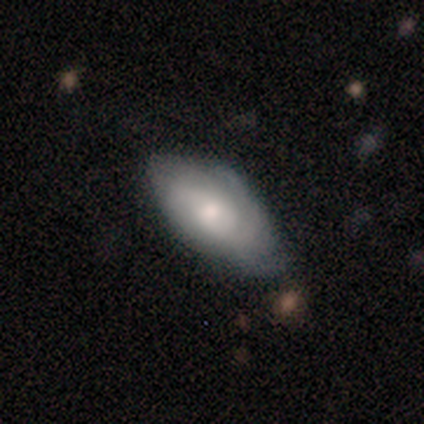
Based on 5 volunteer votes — Smooth or featured: featured or disk — 60% (smooth — 40%)
Edge-on disk: no — 100%
Bar: no — 67% (weak — 33%)
Spiral arms: yes — 67% (no — 33%)
Spiral winding: tight — 50% (tied with medium — 50%)
Spiral arm count: can't tell — 100%
Bulge size: moderate — 67% (small — 33%)
Merging: minor disturbance — 60% (none — 40%)